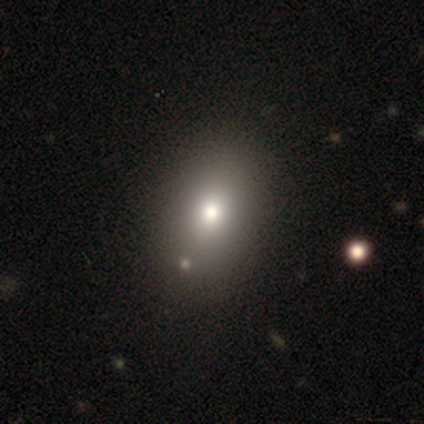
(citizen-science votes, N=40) Smooth or featured? 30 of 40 (75%) said smooth. How rounded? 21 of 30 (70%) said in between. Merging? 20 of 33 (61%) said none.